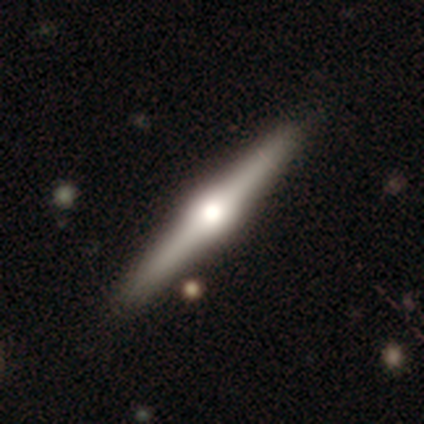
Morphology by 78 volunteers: Q: Smooth or featured?
A: featured or disk (78%); runner-up: smooth (19%)
Q: Edge-on disk?
A: yes (98%); runner-up: no (2%)
Q: Edge-on bulge?
A: rounded (95%); runner-up: boxy (3%)
Q: Merging?
A: none (62%); runner-up: minor disturbance (4%)